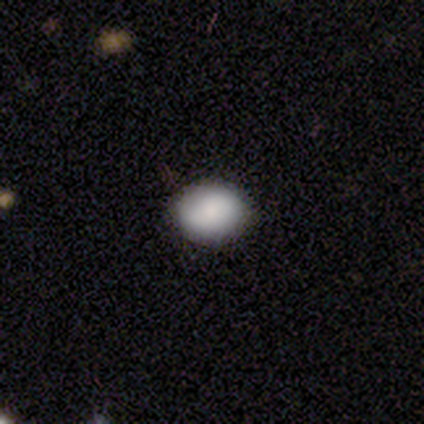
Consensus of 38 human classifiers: Volunteers were most divided on "how rounded": in between: 56%, round: 41%, cigar-shaped: 3%. More confident: smooth or featured — smooth (89%); merging — none (78%).